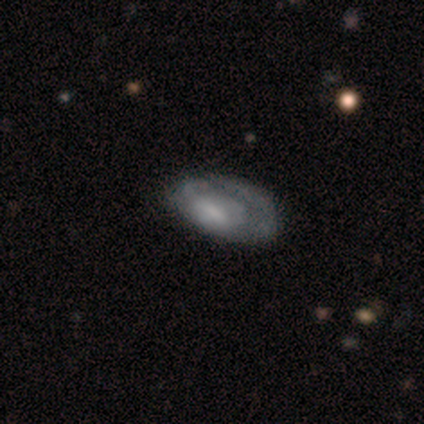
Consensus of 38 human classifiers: Volunteers were most divided on "spiral arms": no: 52%, yes: 48%. Remaining: edge-on disk — no (95%); bar — no (62%); smooth or featured — featured or disk (58%); bulge size — none (48%); merging — major disturbance (32%).